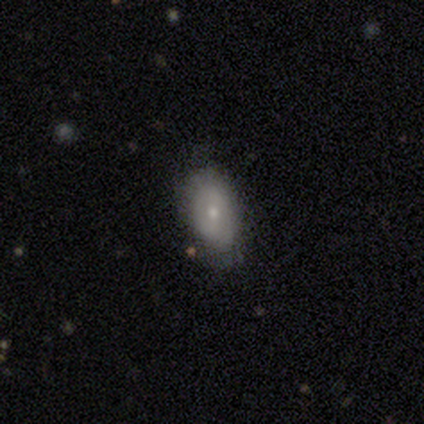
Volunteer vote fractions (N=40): smooth 65%, featured or disk 32%, star or artifact 2%. Down the decision tree: how rounded — in between (96%); merging — none (77%).